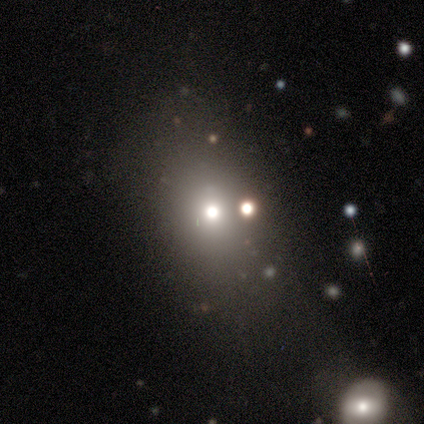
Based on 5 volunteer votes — smooth_or_featured: smooth (p=0.60) [alt: featured or disk p=0.20]
how_rounded: in between (p=0.67) [alt: round p=0.33]
merging: major disturbance (p=0.50) [alt: minor disturbance p=0.25]